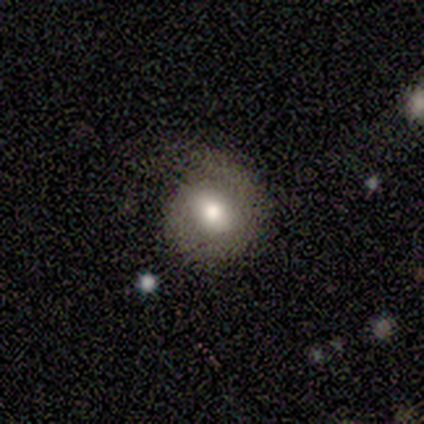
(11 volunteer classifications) Smooth or featured? 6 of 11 (55%) said smooth. How rounded? 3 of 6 (50%, tied with in between) said round. Merging? 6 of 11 (55%) said minor disturbance.